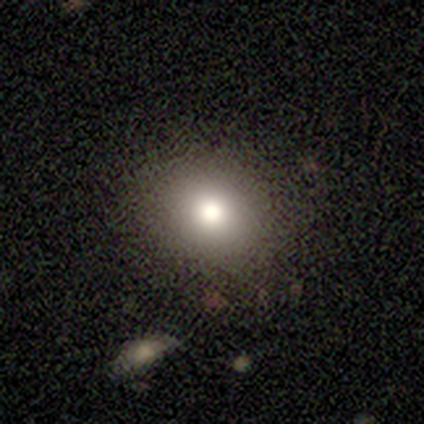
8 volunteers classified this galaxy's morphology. This appears to be a smooth galaxy with no disk features (75%) that is round (50%, tied with in between). Merging: none (86%).